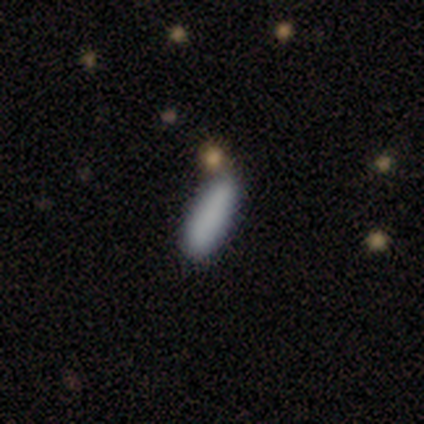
smooth_or_featured: smooth (p=0.90) [alt: star or artifact p=0.08]
how_rounded: in between (p=0.54) [alt: cigar-shaped p=0.43]
merging: none (p=0.75) [alt: minor disturbance p=0.17]